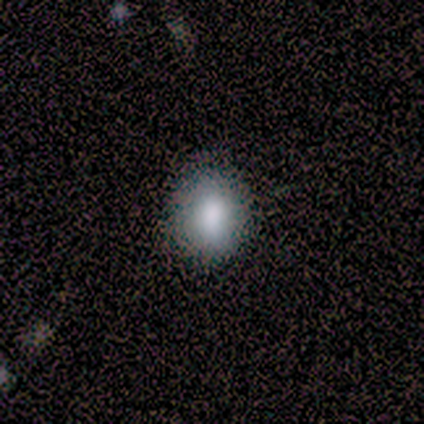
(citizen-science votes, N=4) Volunteers were most divided on "how rounded": round: 75%, in between: 25%, cigar-shaped: 0%. More confident: smooth or featured — smooth (100%); merging — none (75%).